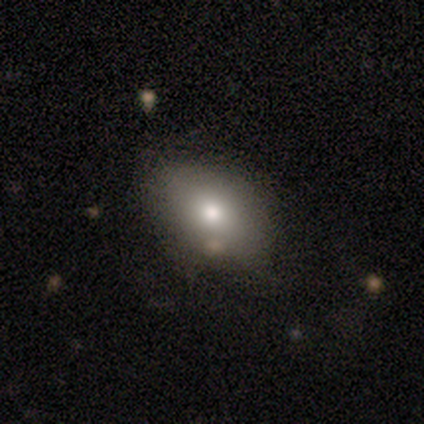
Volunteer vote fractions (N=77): smooth-or-featured: smooth: 82% | featured or disk: 10% | star or artifact: 8%
  how-rounded: in between: 90% | round: 8% | cigar-shaped: 2%
  merging: none: 72% | minor disturbance: 18% | major disturbance: 7% | merger: 3%